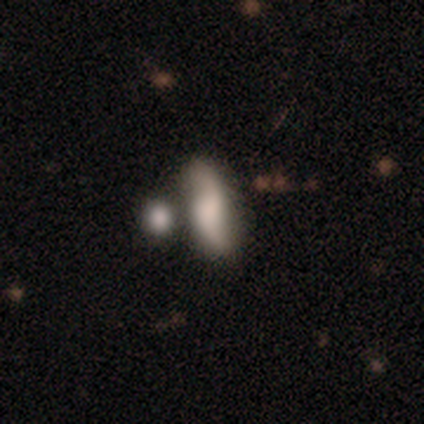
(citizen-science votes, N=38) Q: Smooth or featured?
A: smooth (47%); tied with: featured or disk (47%)
Q: How rounded?
A: in between (50%); tied with: cigar-shaped (50%)
Q: Merging?
A: none (50%); runner-up: minor disturbance (22%)